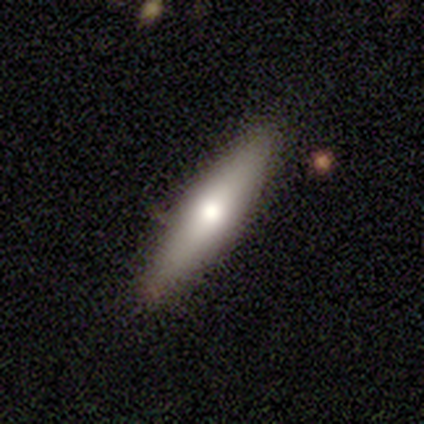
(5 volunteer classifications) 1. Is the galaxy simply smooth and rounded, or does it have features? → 40% smooth (tied), 40% featured or disk (tied), 20% star or artifact.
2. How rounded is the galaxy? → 100% cigar-shaped, 0% round, 0% in between.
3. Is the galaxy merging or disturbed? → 75% none, 25% minor disturbance, 0% major disturbance, 0% merger.